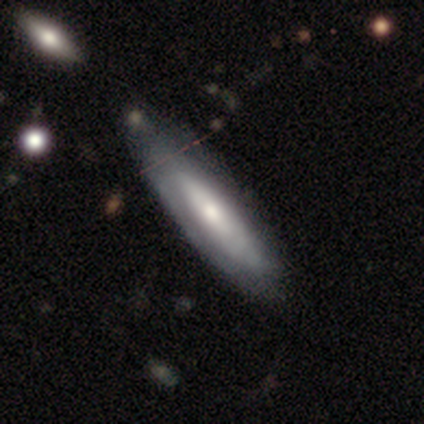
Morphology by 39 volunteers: smooth-or-featured: featured or disk: 49% | smooth: 44% | star or artifact: 8%
  disk-edge-on: no: 79% | yes: 21%
    bar: no: 67% | weak: 20% | strong: 13%
    has-spiral-arms: no: 67% | yes: 33%
    bulge-size: moderate: 67% | small: 20% | large: 7% | none: 7% | dominant: 0%
  merging: none: 56% | minor disturbance: 17% | major disturbance: 6% | merger: 0%